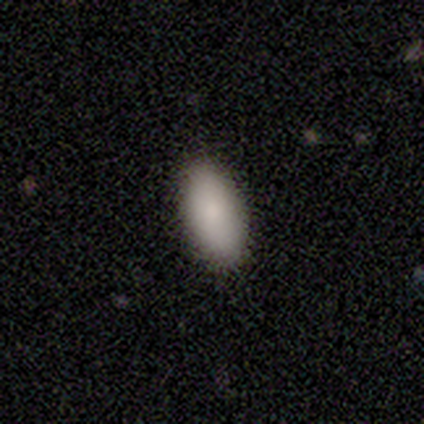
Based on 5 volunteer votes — This appears to be a smooth galaxy with no disk features (100%) that is in between round and cigar-shaped (100%). Merging: none (60%).